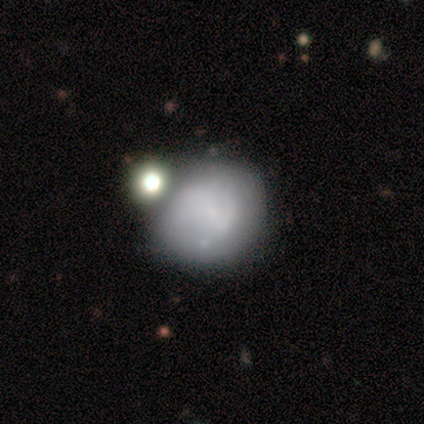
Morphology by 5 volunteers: A smooth galaxy with no disk features (60%) that is round (100%).

Vote fractions:
- Smooth or featured? smooth: 60% / star or artifact: 40% / featured or disk: 0%
- How rounded? round: 100% / in between: 0% / cigar-shaped: 0%
- Merging? none: 100% / minor disturbance: 0% / major disturbance: 0% / merger: 0%